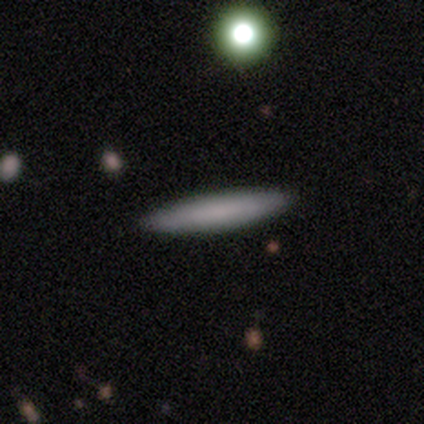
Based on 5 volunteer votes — smooth-or-featured: smooth: 80% | star or artifact: 20% | featured or disk: 0%
  how-rounded: cigar-shaped: 100% | round: 0% | in between: 0%
  merging: none: 100% | minor disturbance: 0% | major disturbance: 0% | merger: 0%